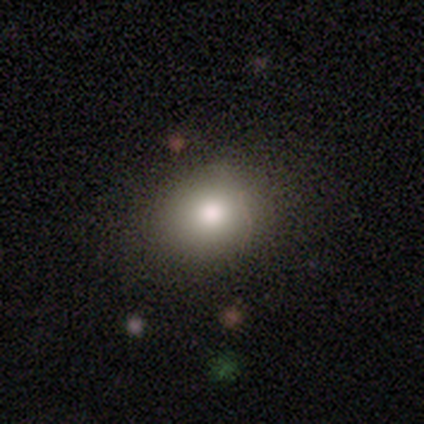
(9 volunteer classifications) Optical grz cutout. It shows a smooth galaxy with no disk features (89%) that is round (50%, tied with in between). Merging: none (100%).